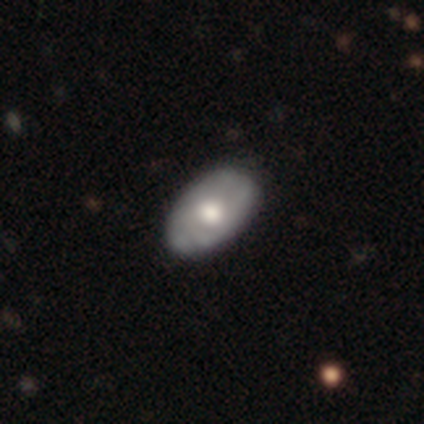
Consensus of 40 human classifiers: Overall: featured or disk (62%; smooth 35%). Edge-on disk: no (100%). Bar: no (88%). Spiral arms: yes (52%; no 48%). Spiral arm count: can't tell (46%; 2 31%). Spiral winding: tight (69%). Bulge size: moderate (64%; large 32%). Merging: none (56%).